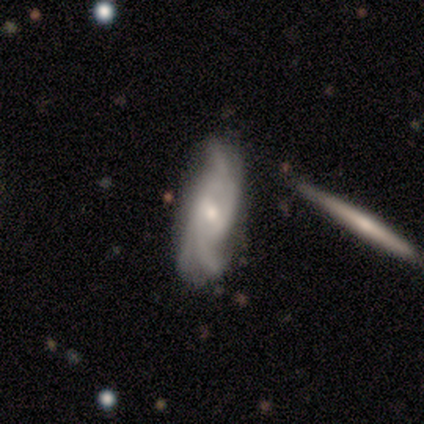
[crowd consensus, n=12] Q: Smooth or featured?
A: featured or disk (83%); runner-up: smooth (8%)
Q: Edge-on disk?
A: no (100%)
Q: Bar?
A: weak (50%); tied with: no (50%)
Q: Spiral arms?
A: yes (100%)
Q: Spiral winding?
A: loose (70%); runner-up: tight (20%)
Q: Spiral arm count?
A: 3 (40%); runner-up: can't tell (30%)
Q: Bulge size?
A: moderate (60%); runner-up: small (40%)
Q: Merging?
A: none (55%); runner-up: minor disturbance (27%)